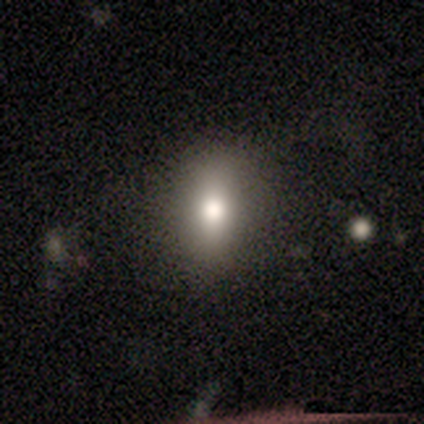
A smooth galaxy with no disk features (100%) that is round (60%).

Vote fractions:
- Smooth or featured? smooth: 100% / featured or disk: 0% / star or artifact: 0%
- How rounded? round: 60% / in between: 40% / cigar-shaped: 0%
- Merging? none: 100% / minor disturbance: 0% / major disturbance: 0% / merger: 0%